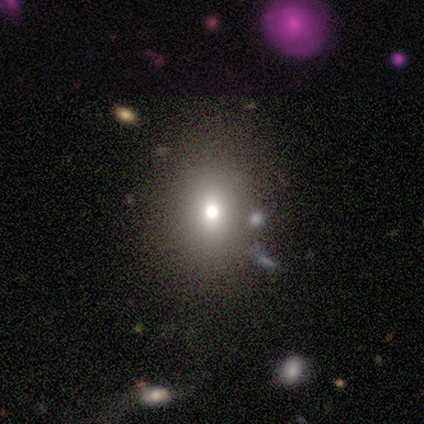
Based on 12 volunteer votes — Volunteers were most divided on "how rounded": in between: 56%, round: 44%, cigar-shaped: 0%. More confident: merging — none (89%); smooth or featured — smooth (75%).